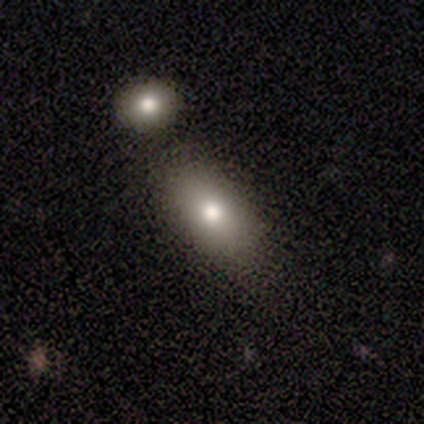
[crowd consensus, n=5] A smooth galaxy with no disk features (100%) that is in between round and cigar-shaped (80%).

Vote fractions:
- Smooth or featured? smooth: 100% / featured or disk: 0% / star or artifact: 0%
- How rounded? in between: 80% / cigar-shaped: 20% / round: 0%
- Merging? none: 60% / minor disturbance: 20% / merger: 20% / major disturbance: 0%